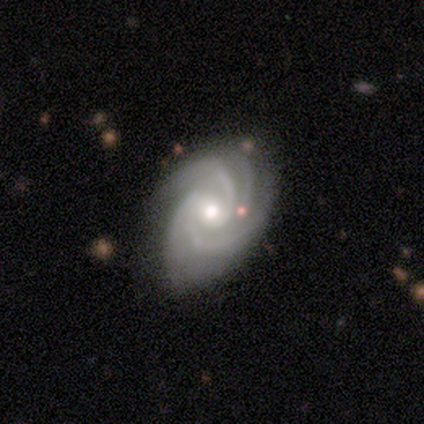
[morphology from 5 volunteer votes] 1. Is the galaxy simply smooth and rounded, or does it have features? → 100% featured or disk, 0% smooth, 0% star or artifact.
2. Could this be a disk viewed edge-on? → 100% no, 0% yes.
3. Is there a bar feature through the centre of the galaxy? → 60% weak, 40% no, 0% strong.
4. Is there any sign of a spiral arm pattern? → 100% yes, 0% no.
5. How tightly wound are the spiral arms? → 60% medium, 40% tight, 0% loose.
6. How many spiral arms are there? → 80% 4, 20% can't tell, 0% 1, 0% 2, 0% 3, 0% more than 4.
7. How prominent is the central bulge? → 60% moderate, 40% small, 0% dominant, 0% large, 0% none.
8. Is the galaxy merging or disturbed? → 60% none, 40% minor disturbance, 0% major disturbance, 0% merger.